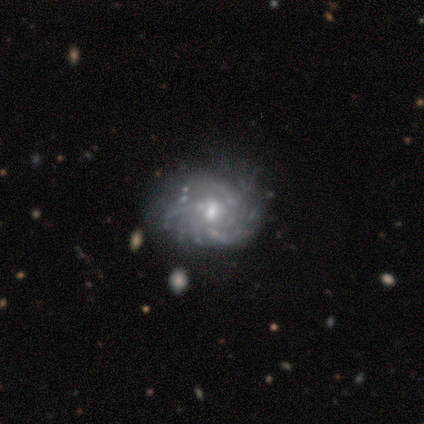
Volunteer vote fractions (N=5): Smooth or featured? 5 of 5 (100%) said featured or disk. Edge-on disk? 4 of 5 (80%) said no. Bar? 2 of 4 (50%) said no. Spiral arms? 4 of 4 (100%) said yes. Spiral winding? 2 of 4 (50%) said medium. Spiral arm count? 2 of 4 (50%) said can't tell. Bulge size? 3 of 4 (75%) said moderate. Merging? 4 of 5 (80%) said none.